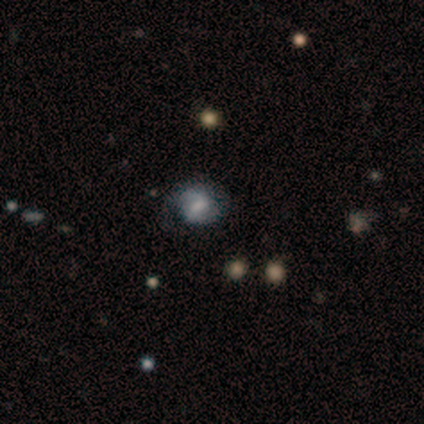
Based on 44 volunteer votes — Smooth or featured? 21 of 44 (48%) said smooth. How rounded? 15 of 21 (71%) said round. Merging? 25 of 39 (64%) said none.